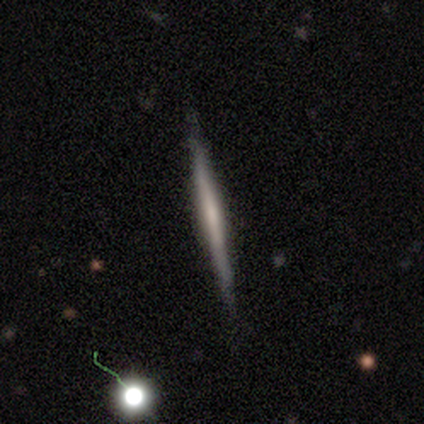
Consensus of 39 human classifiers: This appears to be a smooth galaxy with no disk features (49%) that is cigar-shaped (95%). Merging: none (89%).